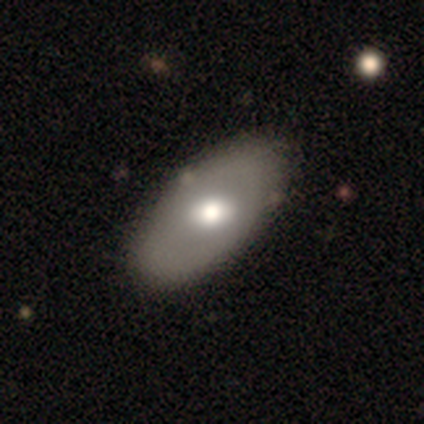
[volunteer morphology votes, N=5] smooth 80%, featured or disk 20%, star or artifact 0%. Down the decision tree: how rounded — in between (75%); merging — none (100%).